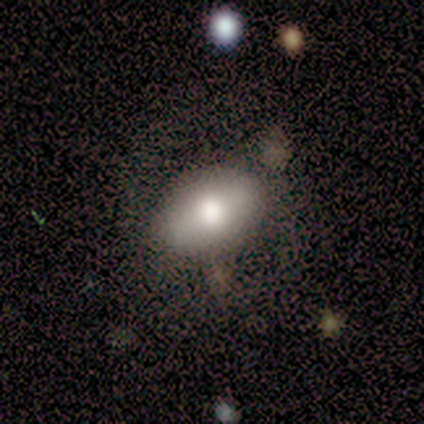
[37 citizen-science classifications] Smooth or featured: smooth — 76% (featured or disk — 22%)
How rounded: in between — 89% (round — 11%)
Merging: none — 69% (minor disturbance — 22%)